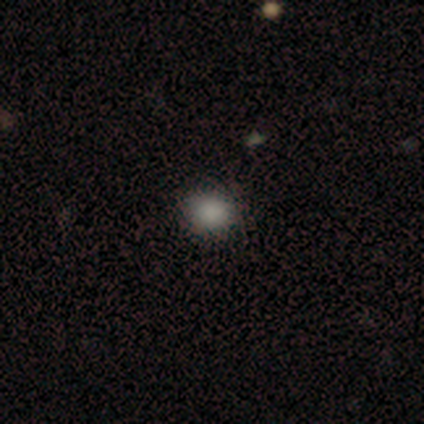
Smooth or featured? smooth (90%)
How rounded? round (89%)
Merging? none (97%)